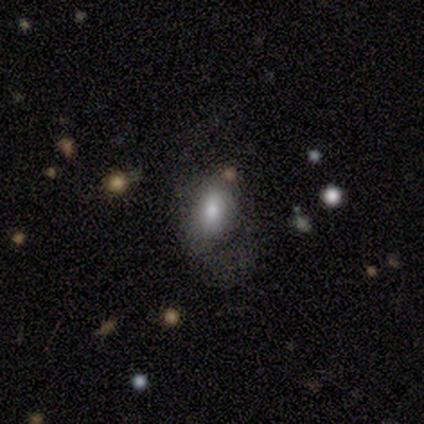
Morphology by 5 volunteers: A smooth galaxy with no disk features (40%, tied with featured or disk) that is round (50%, tied with in between).

Vote fractions:
- Smooth or featured? smooth: 40% (tied) / featured or disk: 40% (tied) / star or artifact: 20%
- How rounded? round: 50% (tied) / in between: 50% (tied) / cigar-shaped: 0%
- Merging? none: 50% (tied) / minor disturbance: 50% (tied) / major disturbance: 0% / merger: 0%